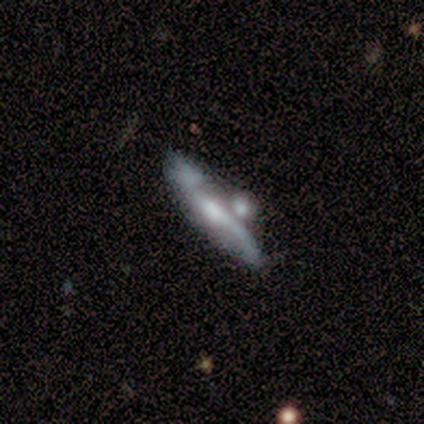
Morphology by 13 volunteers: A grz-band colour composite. It shows a featured or disk galaxy (69%) viewed edge-on (56%) with a rounded central bulge (80%). Merging: none (36%).